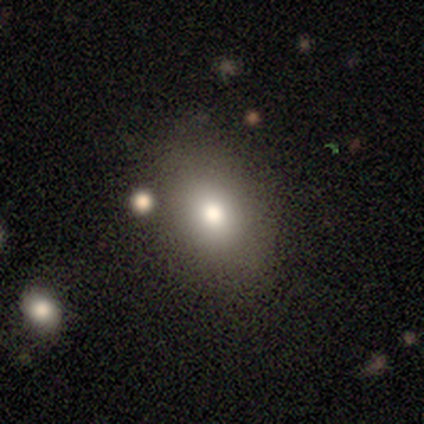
This appears to be a smooth galaxy with no disk features (75%) that is in between round and cigar-shaped (67%). Merging: none (100%).